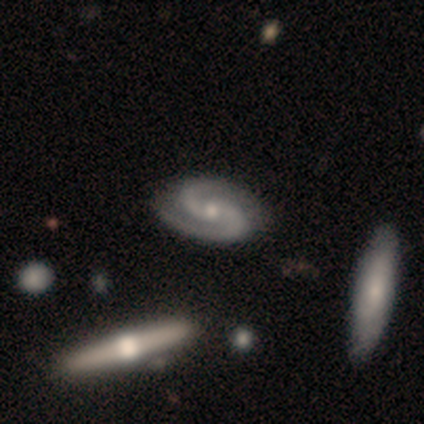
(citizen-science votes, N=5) smooth-or-featured: featured or disk: 100% | smooth: 0% | star or artifact: 0%
  disk-edge-on: no: 80% | yes: 20%
    bar: no: 75% | weak: 25% | strong: 0%
    has-spiral-arms: yes: 100% | no: 0%
      spiral-winding: tight: 50% | medium: 25% | loose: 25%
      spiral-arm-count: 2: 100% | 1: 0% | 3: 0% | 4: 0% | more than 4: 0% | can't tell: 0%
    bulge-size: moderate: 50% (tied) | small: 50% (tied) | dominant: 0% | large: 0% | none: 0%
  merging: none: 60% | minor disturbance: 20% | major disturbance: 20% | merger: 0%